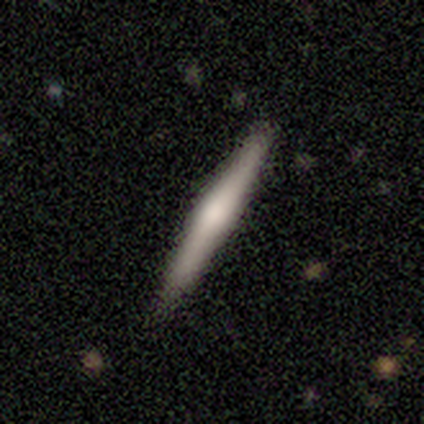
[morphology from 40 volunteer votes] Smooth or featured? 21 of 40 (52%) said featured or disk. Edge-on disk? 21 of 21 (100%) said yes. Edge-on bulge? 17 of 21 (81%) said rounded. Merging? 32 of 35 (91%) said none.